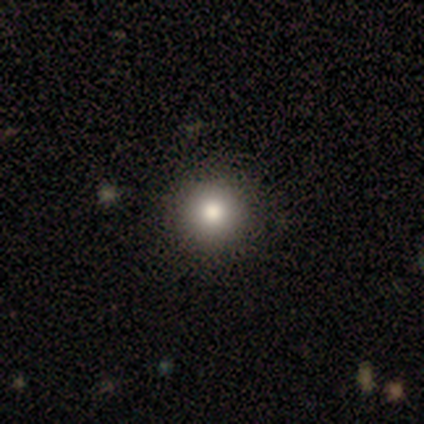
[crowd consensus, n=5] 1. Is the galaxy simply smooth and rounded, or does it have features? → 60% smooth, 20% featured or disk, 20% star or artifact.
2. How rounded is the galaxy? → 100% round, 0% in between, 0% cigar-shaped.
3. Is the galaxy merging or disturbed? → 50% none (tied), 50% minor disturbance (tied), 0% major disturbance, 0% merger.